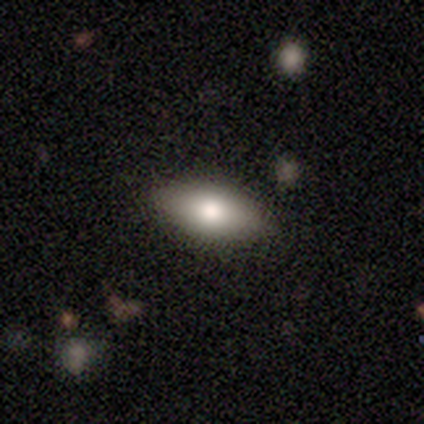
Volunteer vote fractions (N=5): This is likely a smooth galaxy (60%). How rounded: likely in between (67%). Merging: clearly none (100%).